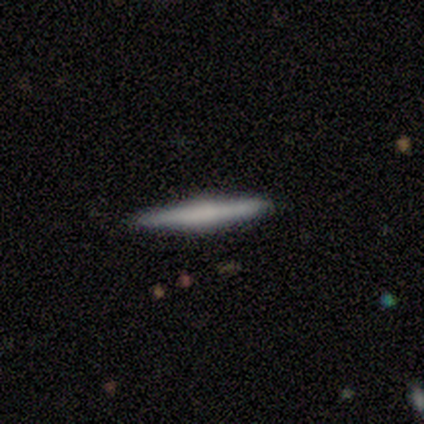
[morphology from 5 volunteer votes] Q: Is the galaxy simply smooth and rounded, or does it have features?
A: featured or disk — 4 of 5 (80%).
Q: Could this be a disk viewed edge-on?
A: yes — 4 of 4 (100%).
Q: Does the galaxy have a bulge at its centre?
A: rounded — 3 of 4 (75%).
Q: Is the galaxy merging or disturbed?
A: none — 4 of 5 (80%).